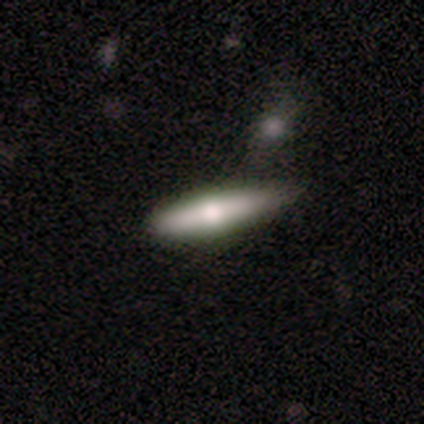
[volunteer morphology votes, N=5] type=featured or disk (60%); edge-on=yes (100%); edge-on bulge=rounded (100%); merging=none (60%).